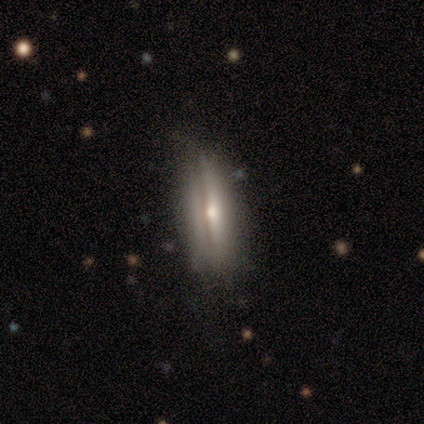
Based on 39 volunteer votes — This appears to be a featured or disk galaxy (54%) viewed edge-on (62%) with a rounded central bulge (62%). Merging: none (61%).